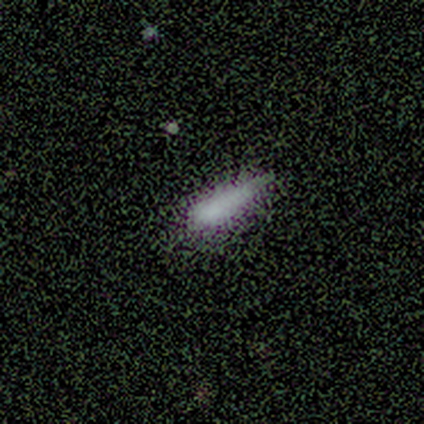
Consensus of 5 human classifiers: smooth 80%, featured or disk 20%, star or artifact 0%. Down the decision tree: how rounded — cigar-shaped (75%); merging — minor disturbance (60%).